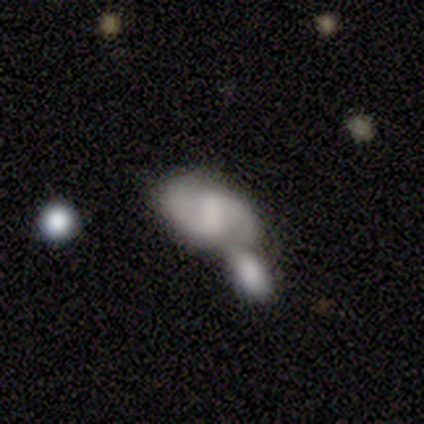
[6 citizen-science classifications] Morphology: type=featured or disk (100%); edge-on=no (100%); bar=no (67%); spiral arms=yes (83%); winding=medium (60%); arm count=2 (100%); bulge=none (67%); merging=none (50%, tied with merger).